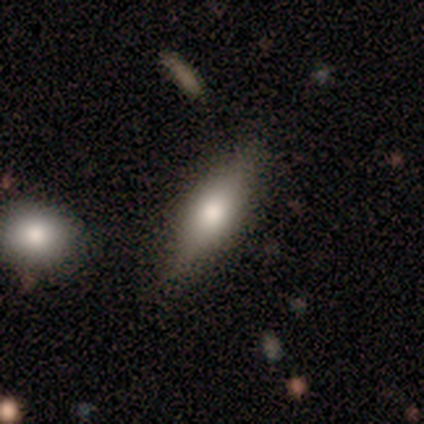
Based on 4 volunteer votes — smooth_or_featured: smooth (p=0.50) [tied with: featured or disk p=0.50]
how_rounded: in between (p=0.50) [tied with: cigar-shaped p=0.50]
merging: none (p=0.50) [tied with: minor disturbance p=0.50]